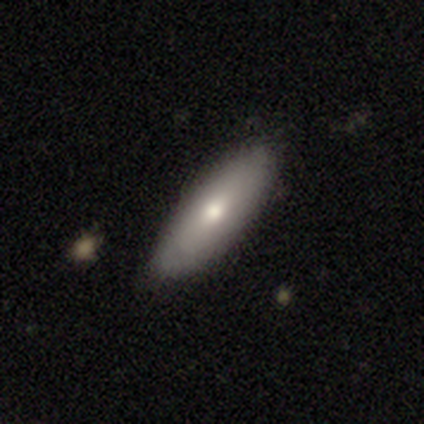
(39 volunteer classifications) A smooth galaxy with no disk features (62%) that is in between round and cigar-shaped (71%).

Vote fractions:
- Smooth or featured? smooth: 62% / featured or disk: 28% / star or artifact: 10%
- How rounded? in between: 71% / cigar-shaped: 29% / round: 0%
- Merging? none: 69% / minor disturbance: 6% / major disturbance: 3% / merger: 0%